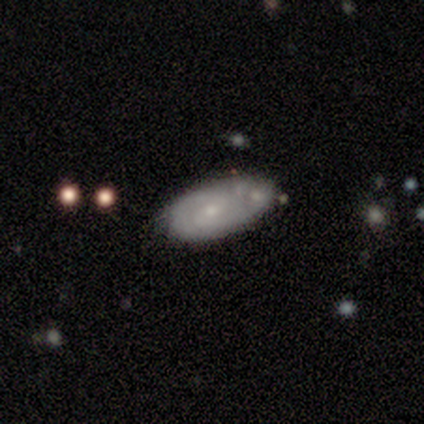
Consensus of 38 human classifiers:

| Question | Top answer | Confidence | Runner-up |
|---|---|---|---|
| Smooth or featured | featured or disk | 68% | smooth (26%) |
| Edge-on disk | no | 81% | yes (19%) |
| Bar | no | 67% | weak (33%) |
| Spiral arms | yes | 71% | no (29%) |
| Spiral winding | tight | 67% | medium (20%) |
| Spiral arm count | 2 | 60% | can't tell (33%) |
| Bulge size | small | 67% | moderate (19%) |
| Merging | none | 44% | minor disturbance (31%) |